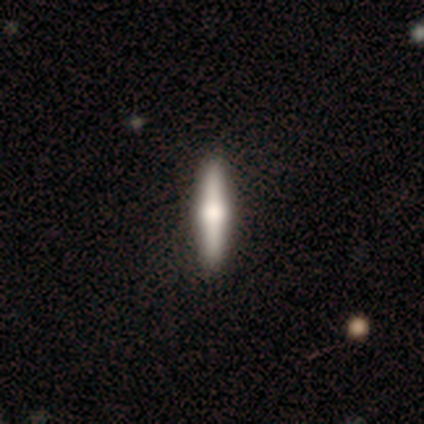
Smooth or featured? 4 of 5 (80%) said smooth. How rounded? 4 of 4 (100%) said cigar-shaped. Merging? 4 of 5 (80%) said none.